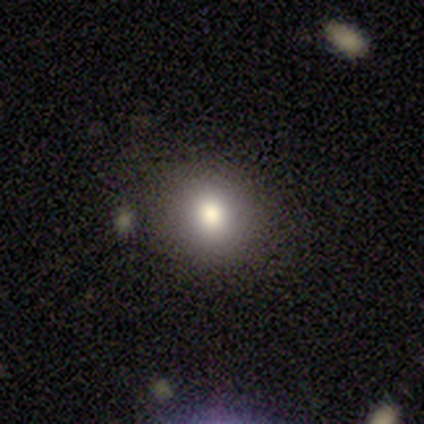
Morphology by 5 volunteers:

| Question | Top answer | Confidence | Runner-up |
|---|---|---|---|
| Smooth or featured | smooth | 100% | — |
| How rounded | round | 80% | in between (20%) |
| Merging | none | 80% | minor disturbance (20%) |